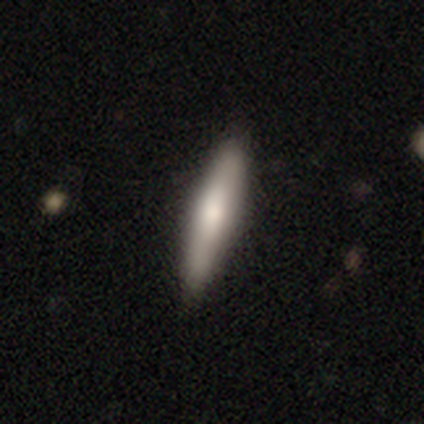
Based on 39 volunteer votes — Morphology: type=smooth (59%); roundness=cigar-shaped (83%); merging=none (59%).